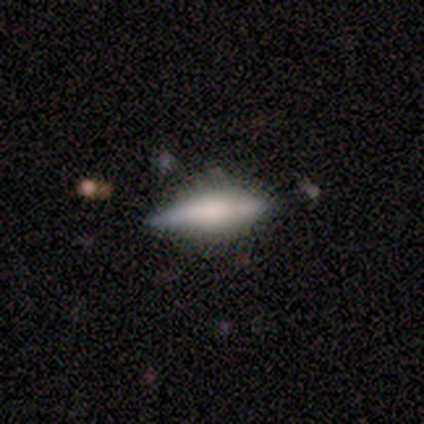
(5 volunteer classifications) This appears to be a smooth galaxy with no disk features (60%) that is cigar-shaped (67%). Merging: none (80%).